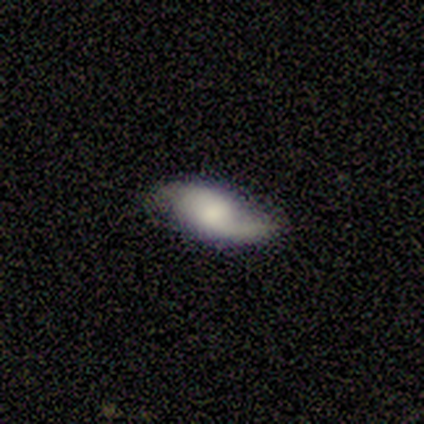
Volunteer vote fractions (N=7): featured or disk 86%, star or artifact 14%, smooth 0%. Down the decision tree: edge-on disk — no (100%); bar — no (67%); spiral arms — yes (83%); spiral arm count — 2 (100%); spiral winding — loose (80%); bulge size — small (33%, tied with none); merging — none (83%).